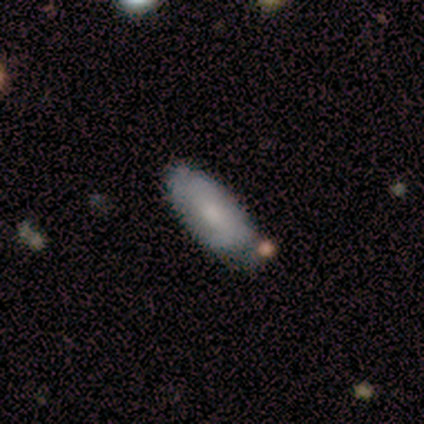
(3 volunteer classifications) Smooth or featured? 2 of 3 (67%) said featured or disk. Edge-on disk? 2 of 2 (100%) said no. Bar? 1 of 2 (50%, tied with no) said strong. Spiral arms? 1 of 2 (50%, tied with no) said yes. Spiral winding? 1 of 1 (100%) said tight. Spiral arm count? 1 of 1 (100%) said can't tell. Bulge size? 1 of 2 (50%, tied with small) said moderate. Merging? 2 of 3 (67%) said none.